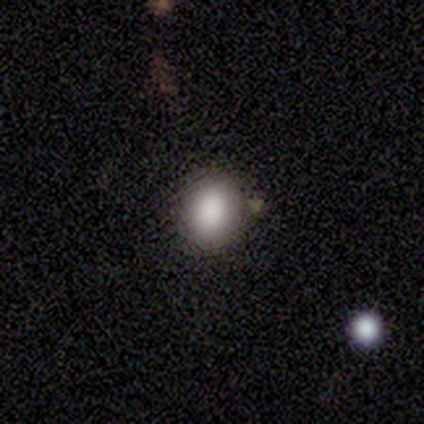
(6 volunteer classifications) smooth_or_featured: smooth (p=0.50) [alt: star or artifact p=0.33]
how_rounded: round (p=0.67) [alt: in between p=0.33]
merging: none (p=0.75) [alt: minor disturbance p=0.25]